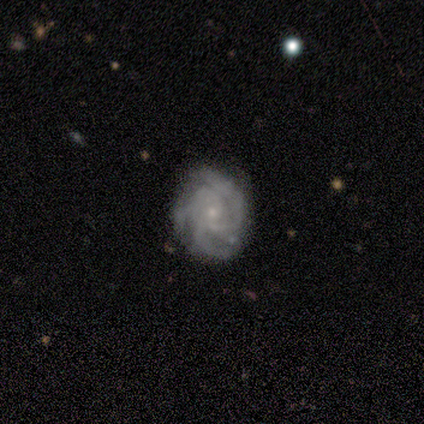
featured or disk 75%, smooth 25%, star or artifact 0%. Down the decision tree: edge-on disk — no (100%); bar — no (100%); spiral arms — yes (100%); spiral arm count — 3 (67%); spiral winding — tight (67%); bulge size — small (100%); merging — none (100%).